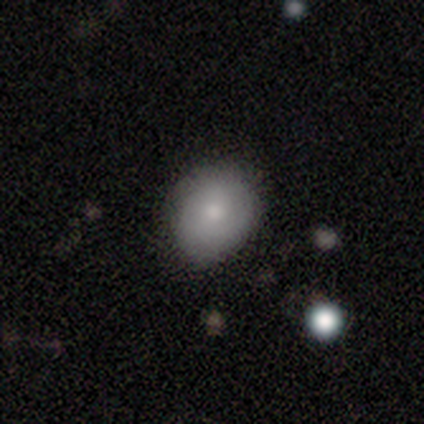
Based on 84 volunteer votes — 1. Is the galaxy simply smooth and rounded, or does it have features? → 73% smooth, 20% featured or disk, 7% star or artifact.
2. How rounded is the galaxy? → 51% in between, 49% round, 0% cigar-shaped.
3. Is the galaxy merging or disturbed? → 73% none, 21% minor disturbance, 5% merger, 1% major disturbance.